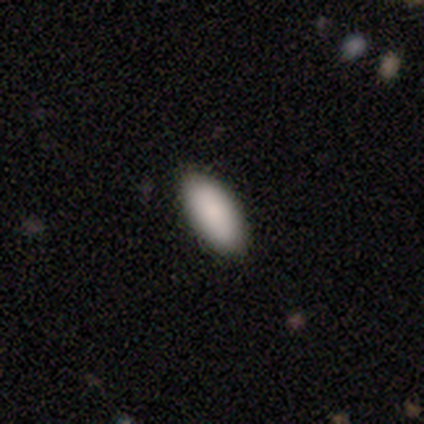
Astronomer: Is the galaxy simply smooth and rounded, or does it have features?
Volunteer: smooth — 91%.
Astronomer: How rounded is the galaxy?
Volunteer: in between — 88%.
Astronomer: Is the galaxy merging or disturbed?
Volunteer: none — 89%.